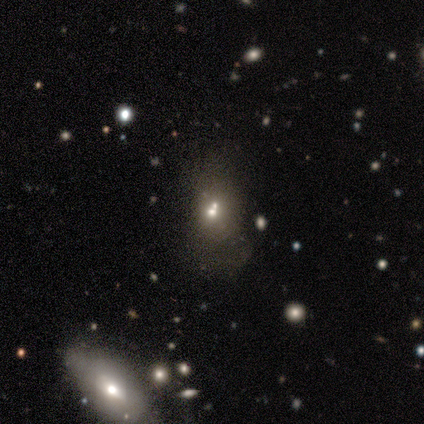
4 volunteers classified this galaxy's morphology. Smooth or featured? 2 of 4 (50%, tied with featured or disk) said smooth. How rounded? 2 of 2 (100%) said round. Merging? 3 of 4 (75%) said none.